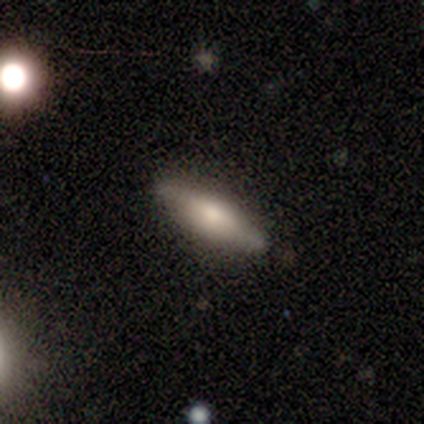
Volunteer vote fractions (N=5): smooth_or_featured: featured or disk (p=0.60) [alt: smooth p=0.40]
disk_edge_on: yes (p=0.67) [alt: no p=0.33]
edge_on_bulge: rounded (p=1.00)
merging: none (p=0.60) [alt: minor disturbance p=0.20]